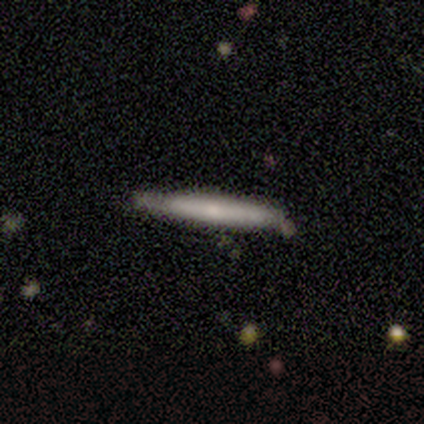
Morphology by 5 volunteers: Overall: featured or disk (60%; smooth 40%). Edge-on disk: yes (100%). Edge-on bulge: none (100%). Merging: none (80%).